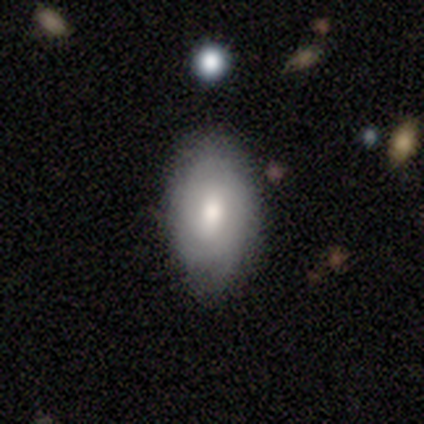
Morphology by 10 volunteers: smooth-or-featured: smooth: 60% | featured or disk: 40% | star or artifact: 0%
  how-rounded: in between: 83% | round: 17% | cigar-shaped: 0%
  merging: none: 70% | minor disturbance: 30% | major disturbance: 0% | merger: 0%